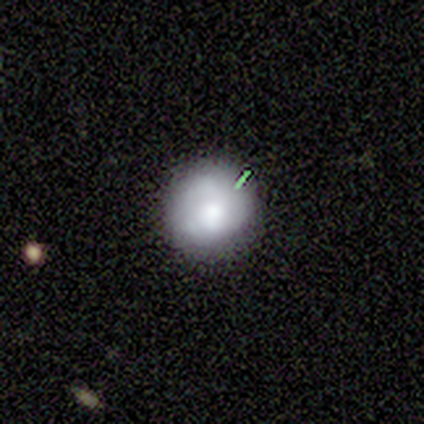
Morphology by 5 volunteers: type=smooth (60%); roundness=round (100%); merging=none (100%).